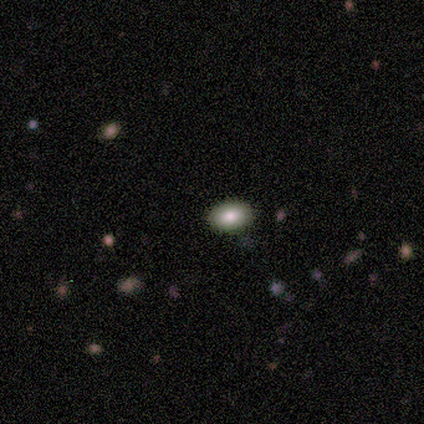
This appears to be a smooth galaxy with no disk features (100%) that is in between round and cigar-shaped (80%). Merging: none (100%).